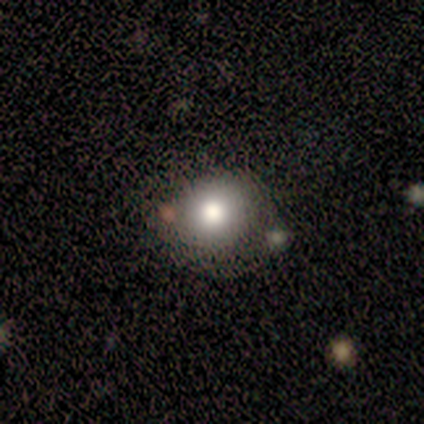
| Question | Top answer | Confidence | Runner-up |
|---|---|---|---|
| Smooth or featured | smooth | 100% | — |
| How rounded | round | 100% | — |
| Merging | none | 50% | minor disturbance (25%) |